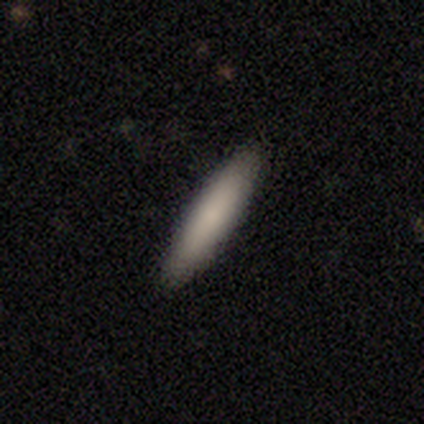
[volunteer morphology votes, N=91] This is clearly a smooth galaxy (88%). How rounded: clearly cigar-shaped (91%). Merging: clearly none (93%).